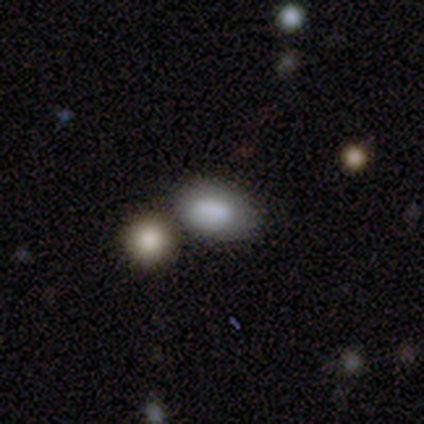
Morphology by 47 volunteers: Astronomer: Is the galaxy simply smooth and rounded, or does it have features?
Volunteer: smooth — 94%.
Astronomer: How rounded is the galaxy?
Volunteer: in between — 89%.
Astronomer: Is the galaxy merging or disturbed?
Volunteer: none — 58%.